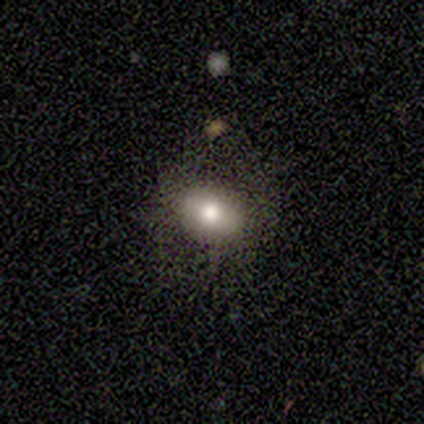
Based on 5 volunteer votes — smooth-or-featured: smooth: 100% | featured or disk: 0% | star or artifact: 0%
  how-rounded: in between: 100% | round: 0% | cigar-shaped: 0%
  merging: none: 100% | minor disturbance: 0% | major disturbance: 0% | merger: 0%